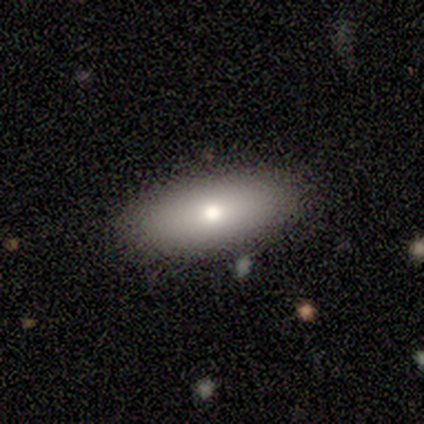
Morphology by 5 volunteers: Smooth or featured?
  - smooth: 80% *
  - featured or disk: 20%
  - star or artifact: 0%
How rounded?
  - in between: 100% *
  - round: 0%
  - cigar-shaped: 0%
Merging?
  - none: 100% *
  - minor disturbance: 0%
  - major disturbance: 0%
  - merger: 0%